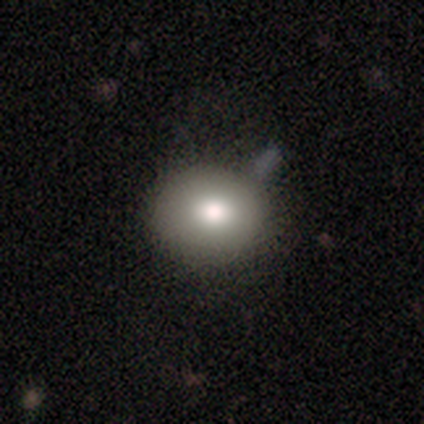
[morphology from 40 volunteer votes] A smooth galaxy with no disk features (80%) that is round (78%). Merging: none (62%).